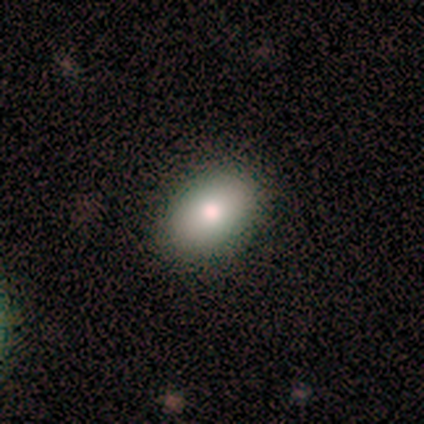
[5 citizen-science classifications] Smooth or featured? 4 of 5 (80%) said featured or disk. Edge-on disk? 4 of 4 (100%) said no. Bar? 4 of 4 (100%) said no. Spiral arms? 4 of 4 (100%) said no. Bulge size? 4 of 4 (100%) said moderate. Merging? 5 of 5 (100%) said none.